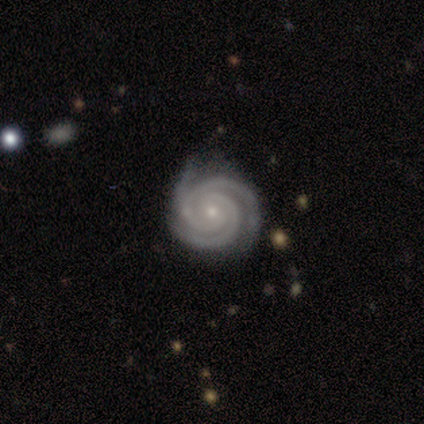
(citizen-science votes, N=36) smooth_or_featured: featured or disk (p=1.00)
disk_edge_on: no (p=1.00)
bar: no (p=0.58) [alt: weak p=0.33]
has_spiral_arms: yes (p=1.00)
spiral_winding: tight (p=0.86) [alt: medium p=0.14]
spiral_arm_count: 3 (p=0.64) [alt: 2 p=0.28]
bulge_size: small (p=0.81) [alt: moderate p=0.17]
merging: none (p=0.69) [alt: minor disturbance p=0.28]